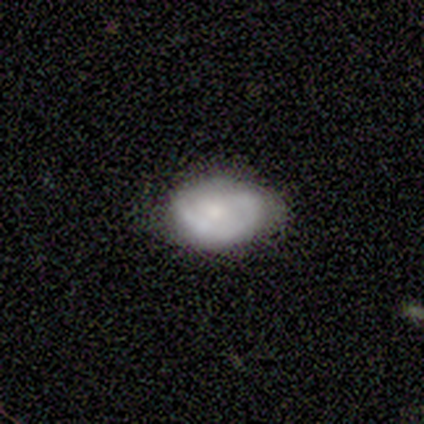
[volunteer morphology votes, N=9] featured or disk 67%, smooth 33%, star or artifact 0%. Down the decision tree: edge-on disk — no (100%); bar — no (67%); spiral arms — yes (67%); spiral arm count — 1 (50%, tied with 2); spiral winding — tight (50%, tied with medium); bulge size — small (67%); merging — none (78%).